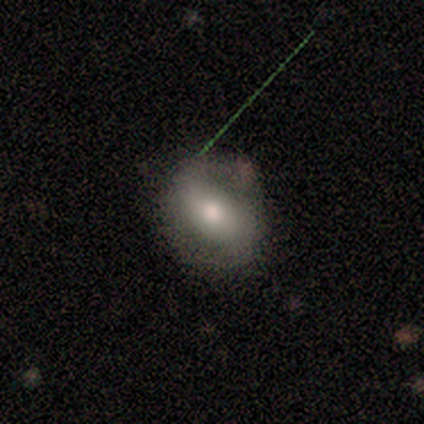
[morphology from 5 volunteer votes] A smooth galaxy with no disk features (40%, tied with featured or disk) that is round (100%). Merging: none (100%).